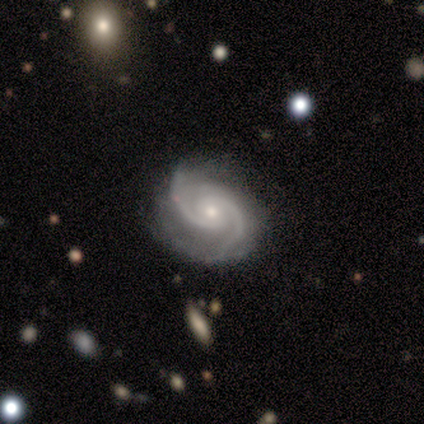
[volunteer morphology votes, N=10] A featured or disk galaxy (100%) with no bar (80%), 2 (90%) medium (70%) spiral arms (100%) and a small central bulge (60%). Merging: none (70%).